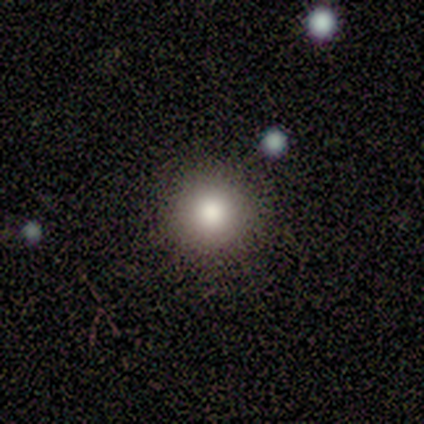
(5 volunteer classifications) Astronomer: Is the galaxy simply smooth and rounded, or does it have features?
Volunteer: smooth — 80%.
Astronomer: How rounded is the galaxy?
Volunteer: round — 100%.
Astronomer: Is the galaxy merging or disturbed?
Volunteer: none — 100%.